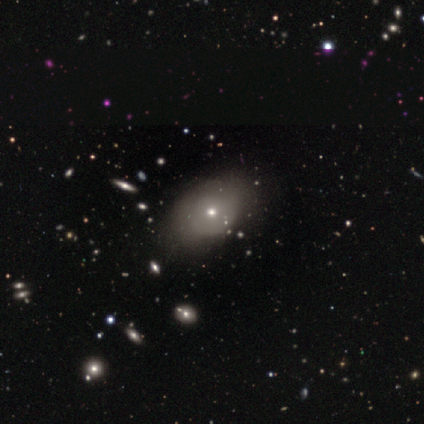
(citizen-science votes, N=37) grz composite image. It shows a smooth galaxy with no disk features (62%) that is in between round and cigar-shaped (57%). Merging: none (68%).